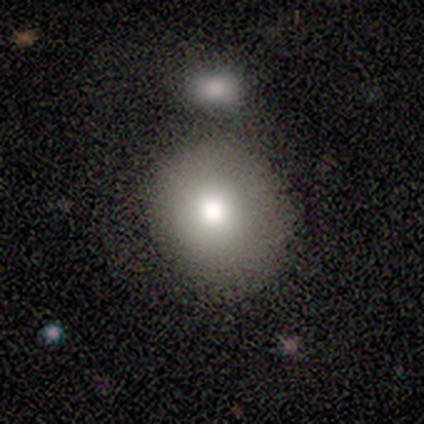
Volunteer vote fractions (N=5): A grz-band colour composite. It shows a smooth galaxy with no disk features (80%) that is round (100%). Merging: none (100%).